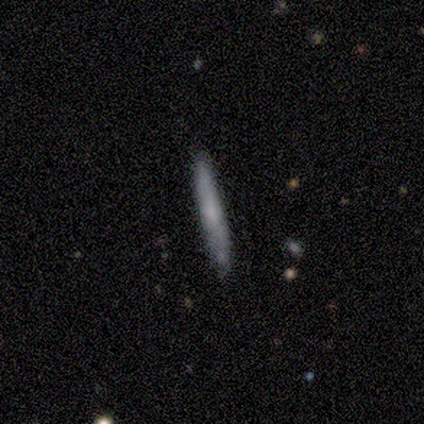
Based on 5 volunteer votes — This is likely a smooth galaxy (60%). How rounded: clearly cigar-shaped (100%). Merging: likely none (75%).